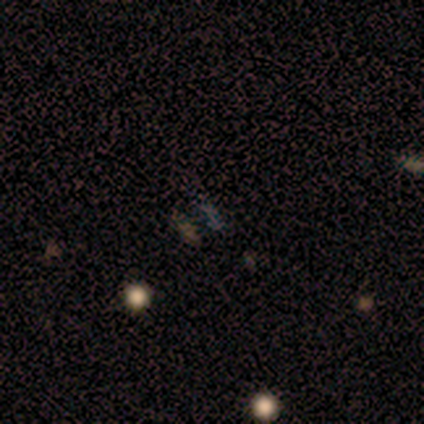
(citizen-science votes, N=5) smooth-or-featured: star or artifact: 60% | smooth: 40% | featured or disk: 0%